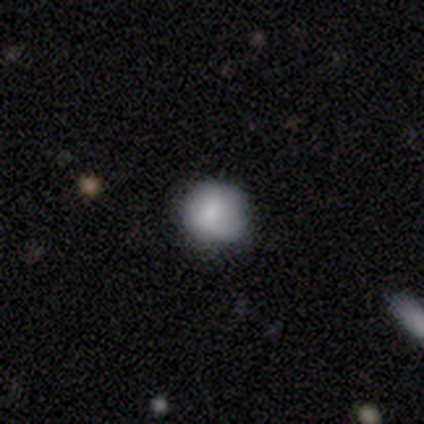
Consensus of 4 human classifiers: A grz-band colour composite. It shows a smooth galaxy with no disk features (100%) that is round (100%). Merging: none (75%).